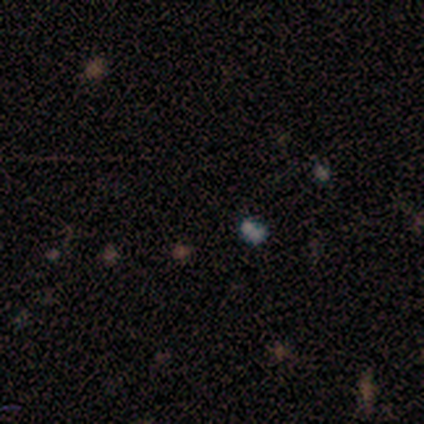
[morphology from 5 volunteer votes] Volunteers were most divided on "smooth or featured": star or artifact: 60%, smooth: 20%, featured or disk: 20%.